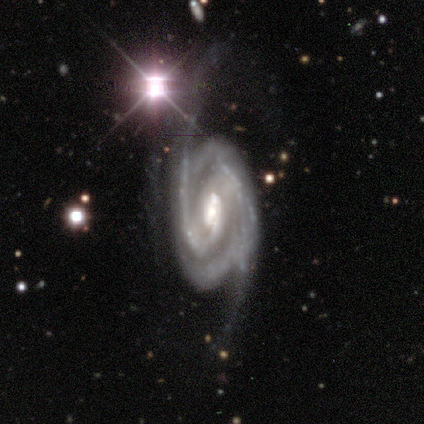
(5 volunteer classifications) Overall: featured or disk (100%). Edge-on disk: no (100%). Bar: no (60%; weak 40%). Spiral arms: yes (100%). Spiral arm count: 2 (60%; 3 20%). Spiral winding: tight (60%; medium 20%). Bulge size: moderate (100%). Merging: none (40%, tied with major disturbance).